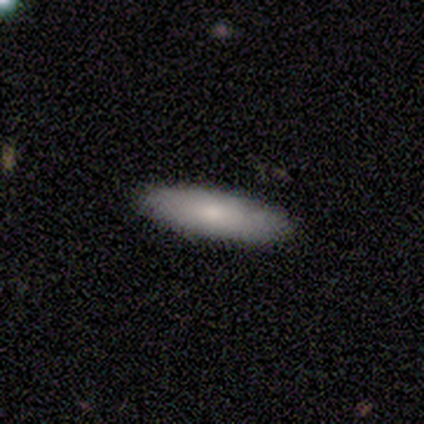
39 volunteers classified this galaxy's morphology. This appears to be a smooth galaxy with no disk features (74%) that is cigar-shaped (55%). Merging: none (100%).